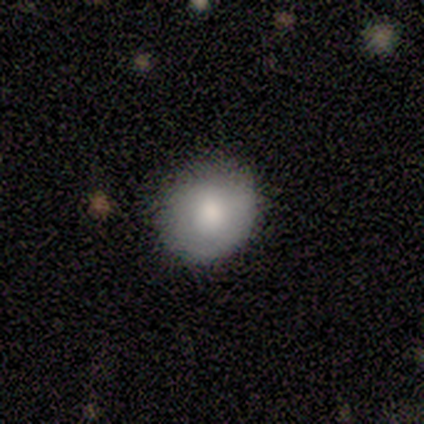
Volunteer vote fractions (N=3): smooth-or-featured: smooth: 100% | featured or disk: 0% | star or artifact: 0%
  how-rounded: round: 100% | in between: 0% | cigar-shaped: 0%
  merging: none: 100% | minor disturbance: 0% | major disturbance: 0% | merger: 0%